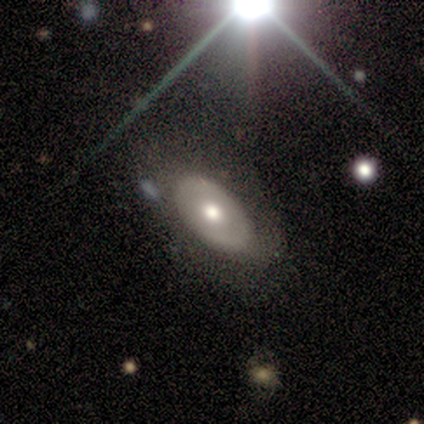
Smooth or featured? 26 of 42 (62%) said featured or disk. Edge-on disk? 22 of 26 (85%) said no. Bar? 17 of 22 (77%) said no. Spiral arms? 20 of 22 (91%) said no. Bulge size? 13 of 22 (59%) said moderate. Merging? 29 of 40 (72%) said none.